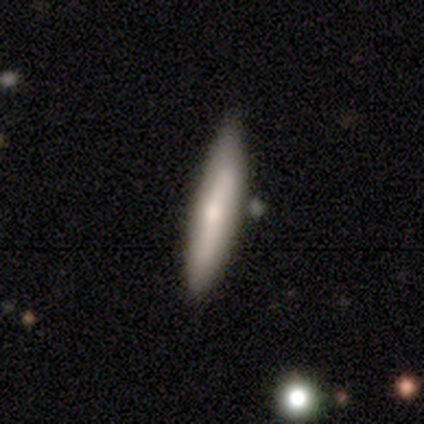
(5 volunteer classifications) This is likely a smooth galaxy (60%). How rounded: clearly cigar-shaped (100%). Merging: clearly none (100%).